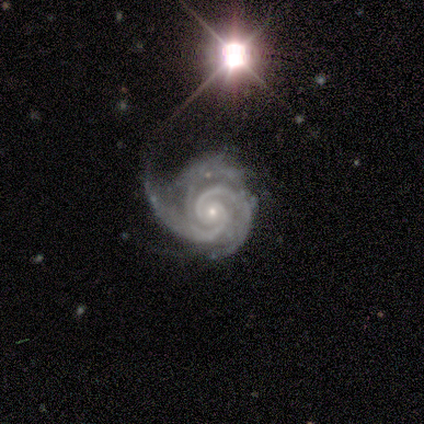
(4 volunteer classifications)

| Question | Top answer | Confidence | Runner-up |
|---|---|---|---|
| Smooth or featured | featured or disk | 100% | — |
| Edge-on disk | no | 100% | — |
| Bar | weak | 75% | no (25%) |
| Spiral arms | yes | 100% | — |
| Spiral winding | medium | 75% | tight (25%) |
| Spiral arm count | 3 | 75% | 2 (25%) |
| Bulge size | small | 100% | — |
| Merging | none | 75% | minor disturbance (25%) |